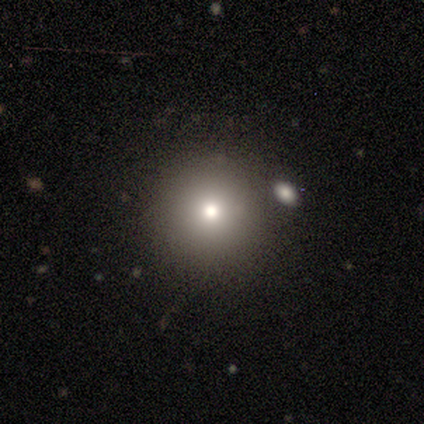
Smooth or featured: smooth — 66% (featured or disk — 18%)
How rounded: round — 100%
Merging: none — 81% (minor disturbance — 9%)